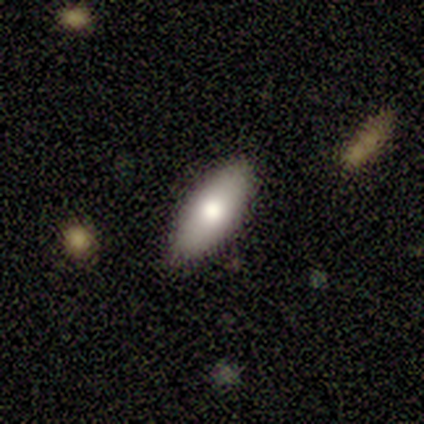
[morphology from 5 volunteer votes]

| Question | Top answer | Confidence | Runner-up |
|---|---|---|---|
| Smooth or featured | smooth | 60% | featured or disk (40%) |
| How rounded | cigar-shaped | 67% | in between (33%) |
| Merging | none | 100% | — |